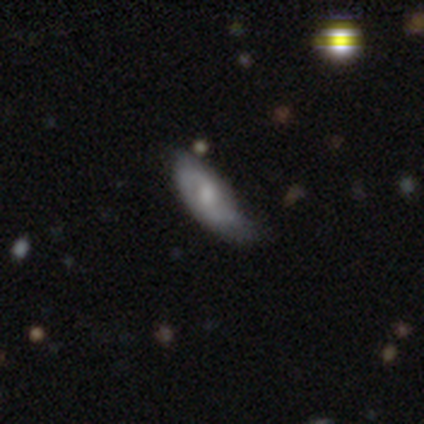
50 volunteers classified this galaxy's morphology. smooth-or-featured: featured or disk: 62% | smooth: 30% | star or artifact: 8%
  disk-edge-on: no: 97% | yes: 3%
    bar: no: 50% | weak: 37% | strong: 13%
    has-spiral-arms: yes: 80% | no: 20%
      spiral-winding: medium: 58% | tight: 29% | loose: 12%
      spiral-arm-count: 2: 75% | can't tell: 21% | more than 4: 4% | 1: 0% | 3: 0% | 4: 0%
    bulge-size: moderate: 70% | small: 17% | large: 7% | none: 7% | dominant: 0%
  merging: minor disturbance: 46% | none: 43% | major disturbance: 11% | merger: 0%